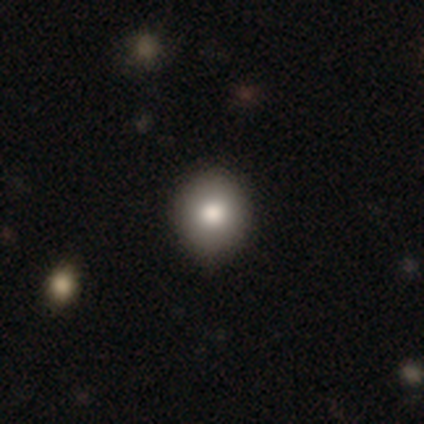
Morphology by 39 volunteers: smooth-or-featured: smooth: 90% | featured or disk: 8% | star or artifact: 3%
  how-rounded: round: 80% | in between: 20% | cigar-shaped: 0%
  merging: none: 87% | minor disturbance: 11% | merger: 3% | major disturbance: 0%